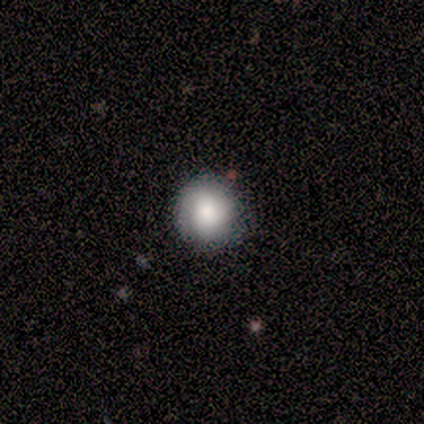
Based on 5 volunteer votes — Smooth or featured? 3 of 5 (60%) said smooth. How rounded? 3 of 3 (100%) said round. Merging? 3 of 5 (60%) said none.